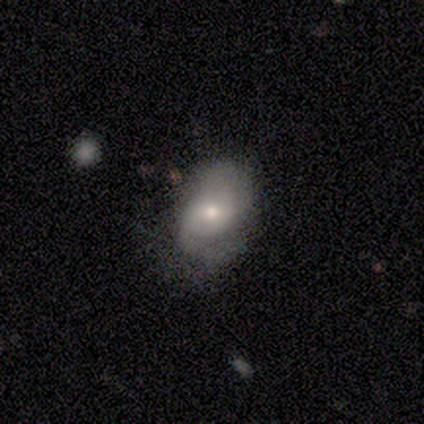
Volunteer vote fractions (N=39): A smooth galaxy with no disk features (49%) that is in between round and cigar-shaped (84%). Merging: none (61%).